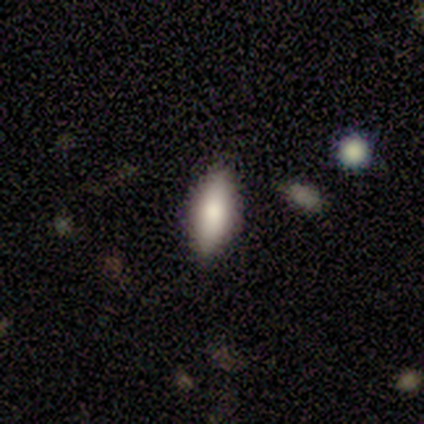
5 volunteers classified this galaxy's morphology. A smooth galaxy with no disk features (100%) that is in between round and cigar-shaped (80%). Merging: none (80%).